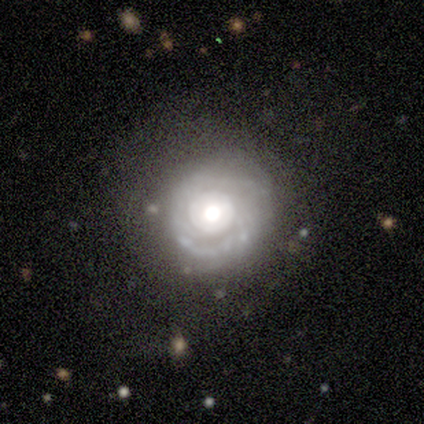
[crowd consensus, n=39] Q: Smooth or featured?
A: featured or disk (79%); runner-up: smooth (10%)
Q: Edge-on disk?
A: no (97%); runner-up: yes (3%)
Q: Bar?
A: no (90%); runner-up: weak (10%)
Q: Spiral arms?
A: yes (67%); runner-up: no (33%)
Q: Spiral winding?
A: tight (75%); runner-up: medium (25%)
Q: Spiral arm count?
A: can't tell (65%); runner-up: 2 (30%)
Q: Bulge size?
A: large (43%); tied with: moderate (43%)
Q: Merging?
A: none (71%); runner-up: minor disturbance (20%)